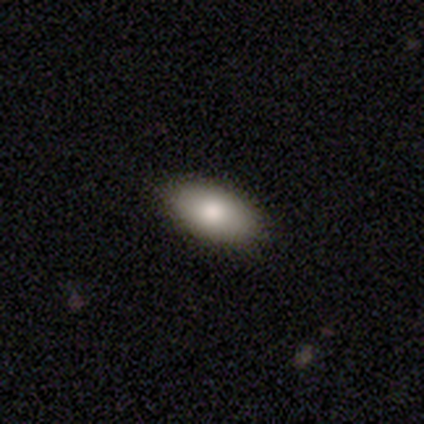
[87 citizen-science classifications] Smooth or featured? 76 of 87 (87%) said smooth. How rounded? 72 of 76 (95%) said in between. Merging? 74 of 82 (90%) said none.